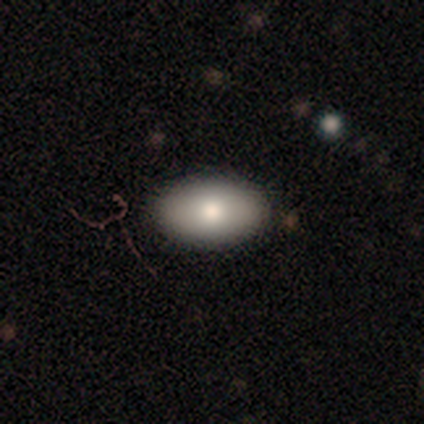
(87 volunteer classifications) Smooth or featured? 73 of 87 (84%) said smooth. How rounded? 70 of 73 (96%) said in between. Merging? 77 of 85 (91%) said none.